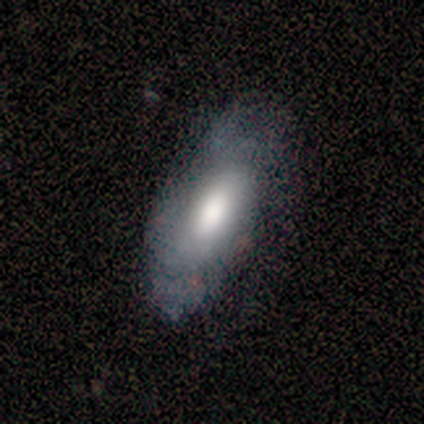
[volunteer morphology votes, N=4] A featured or disk galaxy (100%) with a weak bar (67%), no spiral arms (67%) and a moderate central bulge (67%). Merging: minor disturbance (75%).